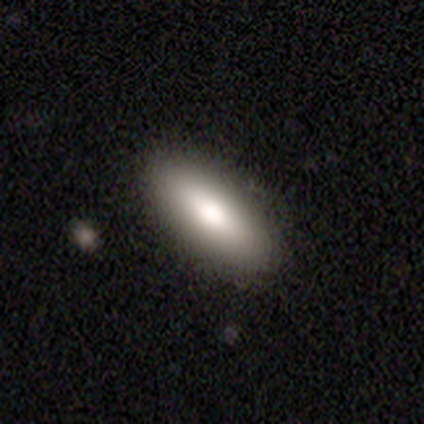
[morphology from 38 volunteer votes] This is clearly a smooth galaxy (82%). How rounded: likely in between (71%). Merging: clearly none (100%).